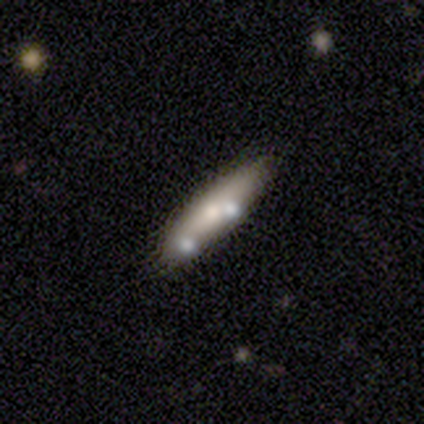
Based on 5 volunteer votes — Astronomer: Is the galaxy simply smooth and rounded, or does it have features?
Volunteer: smooth — 60%.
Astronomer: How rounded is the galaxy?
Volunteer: in between — 67%.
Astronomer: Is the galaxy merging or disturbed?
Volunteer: none — 50%, tied with minor disturbance at 50%.